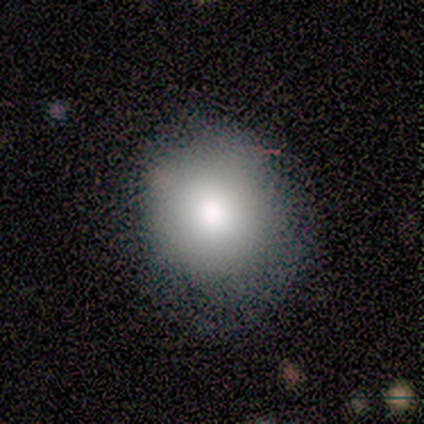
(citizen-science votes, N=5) smooth_or_featured: smooth (p=0.60) [alt: featured or disk p=0.20]
how_rounded: round (p=0.67) [alt: in between p=0.33]
merging: none (p=0.50) [alt: minor disturbance p=0.25]